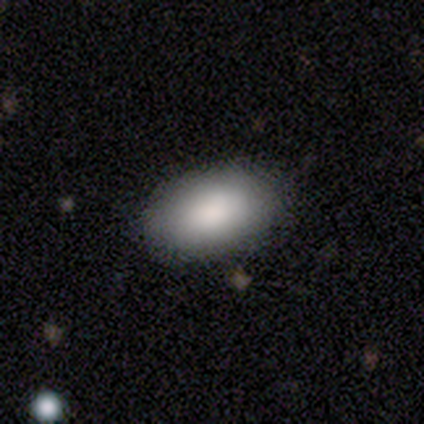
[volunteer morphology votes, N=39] Overall: smooth (90%). How rounded: in between (97%). Merging: none (54%).